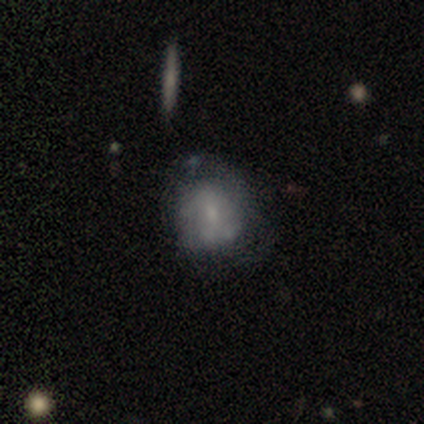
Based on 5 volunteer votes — featured or disk 80%, smooth 20%, star or artifact 0%. Down the decision tree: edge-on disk — no (100%); bar — no (75%); spiral arms — no (75%); bulge size — small (50%); merging — none (80%).